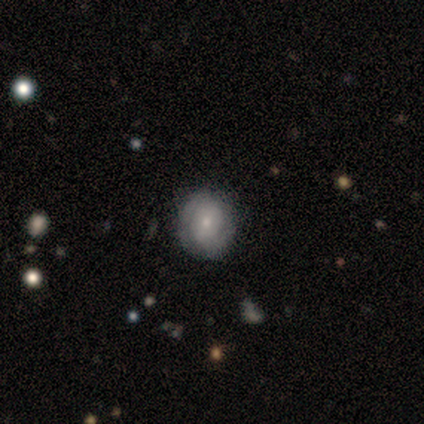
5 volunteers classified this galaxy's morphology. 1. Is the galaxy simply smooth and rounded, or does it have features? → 60% featured or disk, 40% smooth, 0% star or artifact.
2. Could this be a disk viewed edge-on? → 100% no, 0% yes.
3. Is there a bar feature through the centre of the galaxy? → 67% no, 33% strong, 0% weak.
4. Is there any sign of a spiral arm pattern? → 67% yes, 33% no.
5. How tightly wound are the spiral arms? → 50% tight (tied), 50% loose (tied), 0% medium.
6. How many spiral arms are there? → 100% 2, 0% 1, 0% 3, 0% 4, 0% more than 4, 0% can't tell.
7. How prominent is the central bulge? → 100% small, 0% dominant, 0% large, 0% moderate, 0% none.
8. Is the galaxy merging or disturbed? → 100% none, 0% minor disturbance, 0% major disturbance, 0% merger.